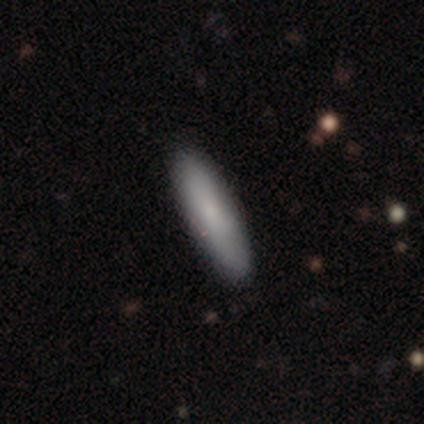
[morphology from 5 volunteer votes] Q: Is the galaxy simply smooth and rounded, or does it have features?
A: smooth — 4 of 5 (80%).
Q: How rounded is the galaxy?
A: cigar-shaped — 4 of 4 (100%).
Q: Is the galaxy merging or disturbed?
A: none — 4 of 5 (80%).